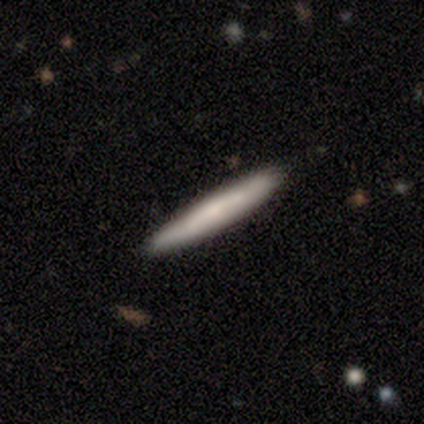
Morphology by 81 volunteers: Smooth or featured: smooth — 60% (featured or disk — 35%)
How rounded: cigar-shaped — 98% (in between — 2%)
Merging: none — 45% (minor disturbance — 6%)